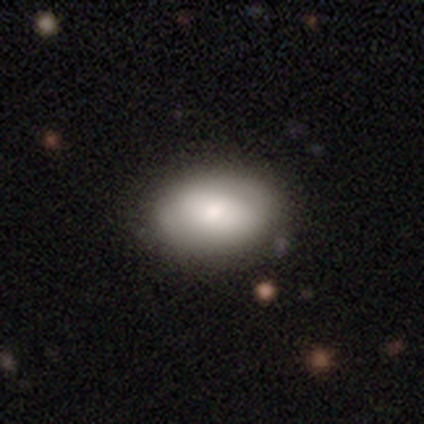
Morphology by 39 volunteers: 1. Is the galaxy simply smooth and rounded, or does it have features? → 72% smooth, 23% featured or disk, 5% star or artifact.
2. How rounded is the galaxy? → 89% in between, 11% round, 0% cigar-shaped.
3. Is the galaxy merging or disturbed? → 62% none, 5% major disturbance, 5% merger, 0% minor disturbance.